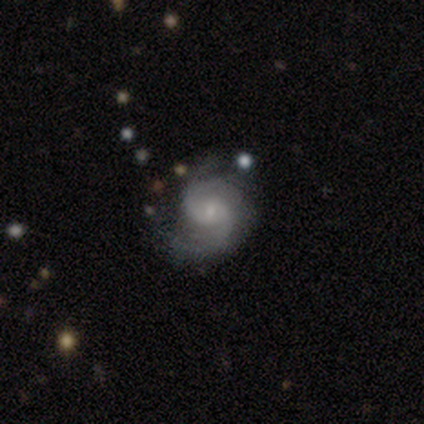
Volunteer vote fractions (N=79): Volunteers were most divided on "merging": none: 32%, minor disturbance: 15%, major disturbance: 4%, merger: 4%. More confident: edge-on disk — no (100%); spiral arms — yes (97%); smooth or featured — featured or disk (89%); bulge size — small (79%); spiral arm count — 2 (63%); spiral winding — medium (60%); bar — no (57%).